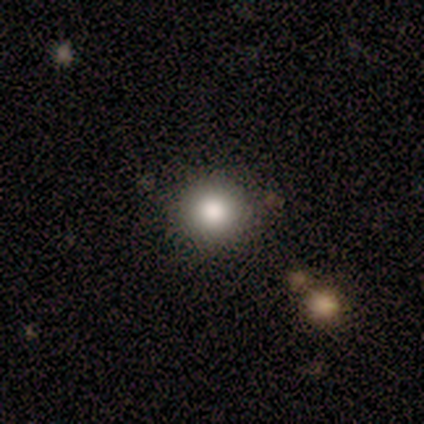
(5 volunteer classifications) Smooth or featured?
  - smooth: 80% *
  - star or artifact: 20%
  - featured or disk: 0%
How rounded?
  - round: 100% *
  - in between: 0%
  - cigar-shaped: 0%
Merging?
  - none: 100% *
  - minor disturbance: 0%
  - major disturbance: 0%
  - merger: 0%